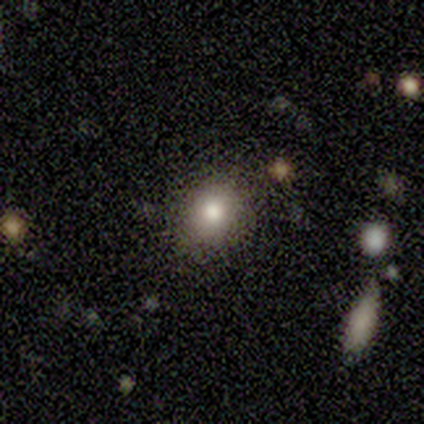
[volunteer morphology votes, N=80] Smooth or featured? smooth (85%)
How rounded? round (65%)
Merging? none (44%)